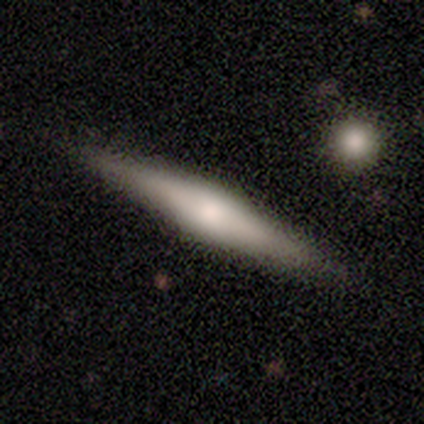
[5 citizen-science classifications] This appears to be a featured or disk galaxy (60%) viewed edge-on (100%) with a rounded central bulge (67%). Merging: none (100%).